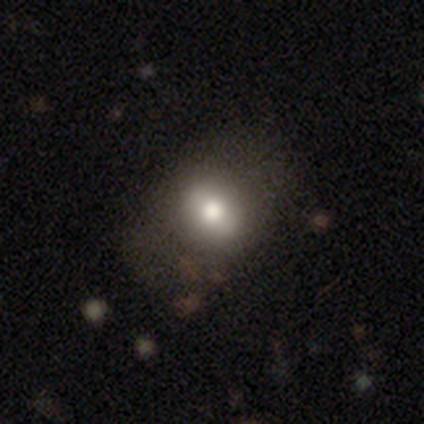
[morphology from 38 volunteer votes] smooth 66%, featured or disk 24%, star or artifact 11%. Down the decision tree: how rounded — in between (52%); merging — none (59%).